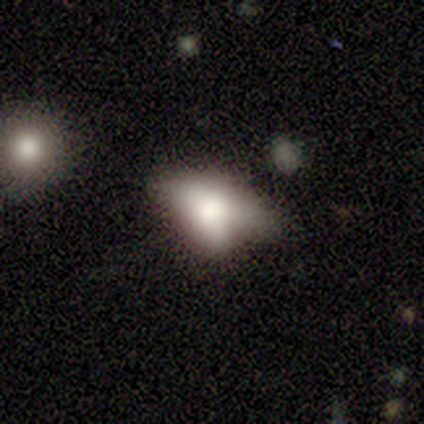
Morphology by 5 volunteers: Overall: smooth (60%; featured or disk 20%). How rounded: in between (100%). Merging: minor disturbance (50%; none 25%).